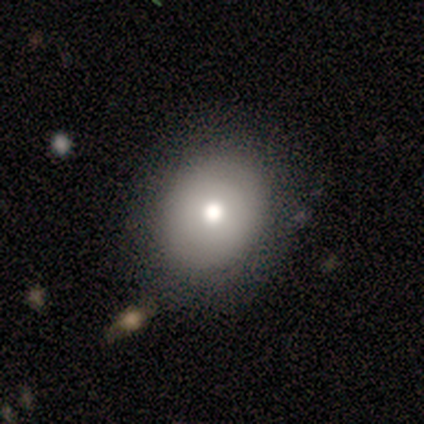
Volunteers were most divided on "how rounded" (2-way tie): round: 50%, in between: 50%, cigar-shaped: 0%. Remaining: smooth or featured — smooth (80%); merging — none (40%).